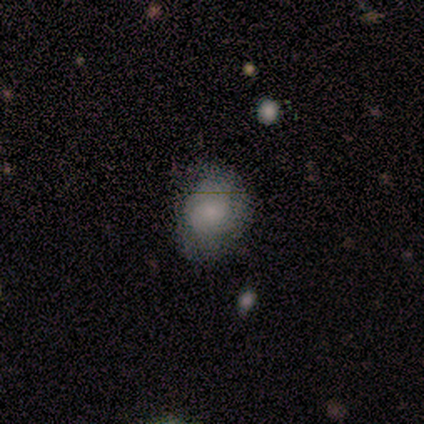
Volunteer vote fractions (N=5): Smooth or featured?
  - smooth: 60% *
  - star or artifact: 40%
  - featured or disk: 0%
How rounded?
  - in between: 67% *
  - round: 33%
  - cigar-shaped: 0%
Merging?
  - minor disturbance: 67% *
  - none: 33%
  - major disturbance: 0%
  - merger: 0%